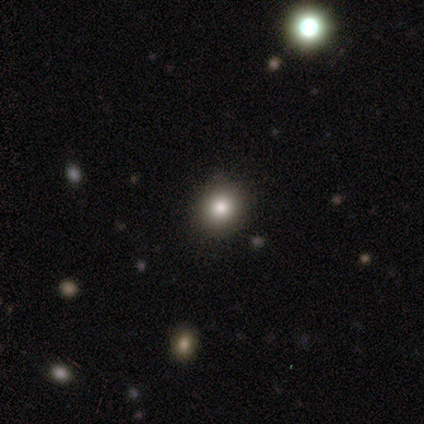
smooth 50% (tied), featured or disk 50% (tied), star or artifact 0%. Down the decision tree: how rounded — round (100%); merging — none (50%).